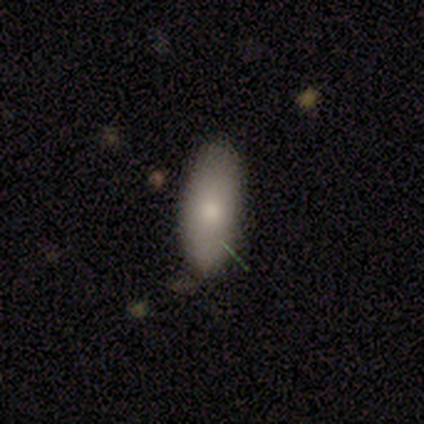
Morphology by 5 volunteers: This appears to be a smooth galaxy with no disk features (80%) that is in between round and cigar-shaped (75%). Merging: none (100%).